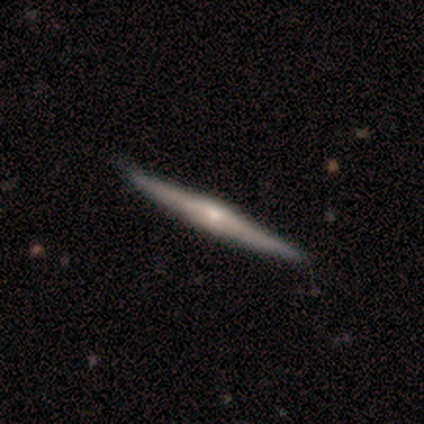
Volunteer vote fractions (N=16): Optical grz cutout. It shows a featured or disk galaxy (75%) viewed edge-on (100%) with a rounded central bulge (58%). Merging: none (88%).